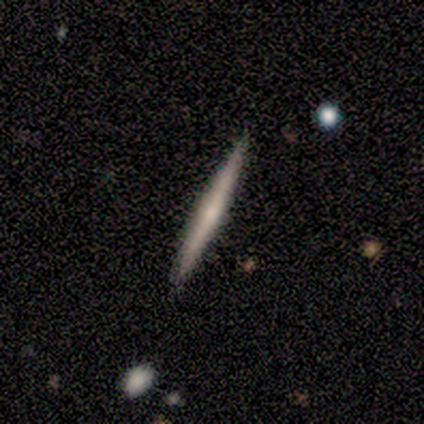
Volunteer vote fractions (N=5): Smooth or featured? 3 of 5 (60%) said featured or disk. Edge-on disk? 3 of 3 (100%) said yes. Edge-on bulge? 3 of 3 (100%) said rounded. Merging? 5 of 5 (100%) said none.